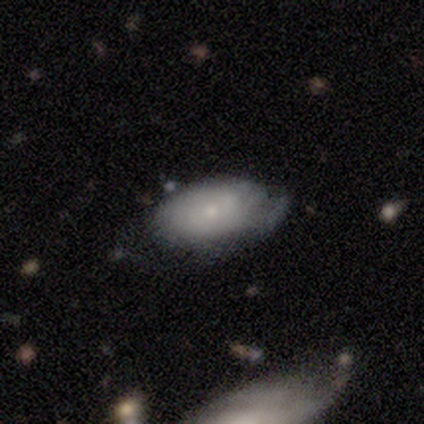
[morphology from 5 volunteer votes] Smooth or featured? featured or disk (60%)
Edge-on disk? no (100%)
Bar? no (100%)
Spiral arms? yes (67%)
Spiral winding? tight (100%)
Spiral arm count? 2 (50%, tied with can't tell)
Bulge size? small (100%)
Merging? none (40%, tied with minor disturbance)